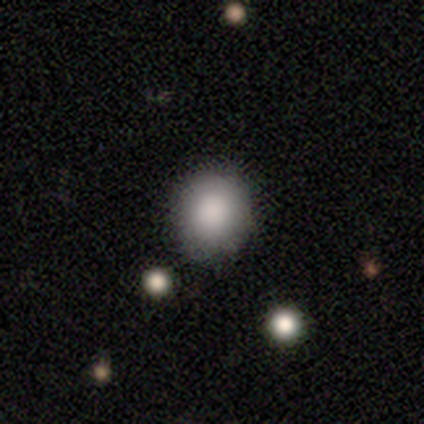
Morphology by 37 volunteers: Volunteers were most divided on "merging": none: 68%, minor disturbance: 12%, merger: 9%, major disturbance: 0%. More confident: how rounded — round (87%); smooth or featured — smooth (84%).